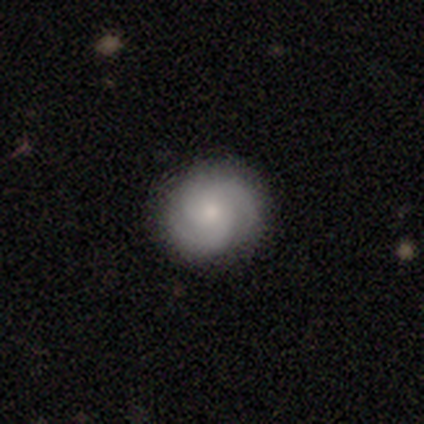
A featured or disk galaxy (67%) with no bar (92%), 3 (70%) tight (58%) spiral arms (98%) and a moderate central bulge (47%).

Vote fractions:
- Smooth or featured? featured or disk: 67% / smooth: 31% / star or artifact: 3%
- Edge-on disk? no: 98% / yes: 2%
- Bar? no: 92% / weak: 6% / strong: 2%
- Spiral arms? yes: 98% / no: 2%
- Spiral winding? tight: 58% / medium: 40% / loose: 2%
- Spiral arm count? 3: 70% / 2: 18% / can't tell: 10% / 1: 2% / 4: 0% / more than 4: 0%
- Bulge size? moderate: 47% / small: 41% / dominant: 4% / large: 4% / none: 4%
- Merging? none: 62% / minor disturbance: 4% / major disturbance: 0% / merger: 0%